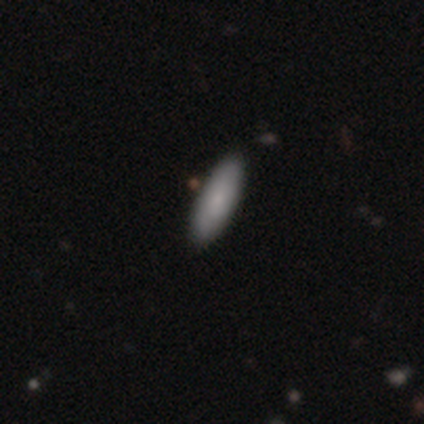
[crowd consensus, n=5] smooth 100%, featured or disk 0%, star or artifact 0%. Down the decision tree: how rounded — cigar-shaped (60%); merging — none (80%).